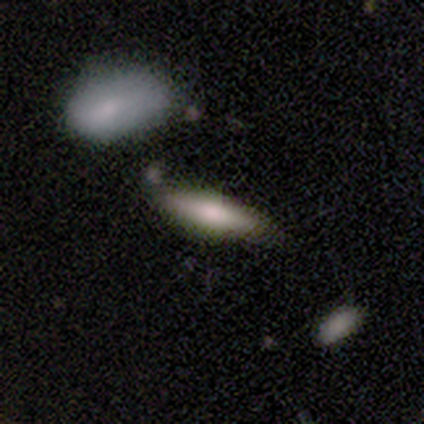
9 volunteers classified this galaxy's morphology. Smooth or featured: smooth — 89% (featured or disk — 11%)
How rounded: in between — 50% (tied with cigar-shaped — 50%)
Merging: none — 56% (minor disturbance — 33%)